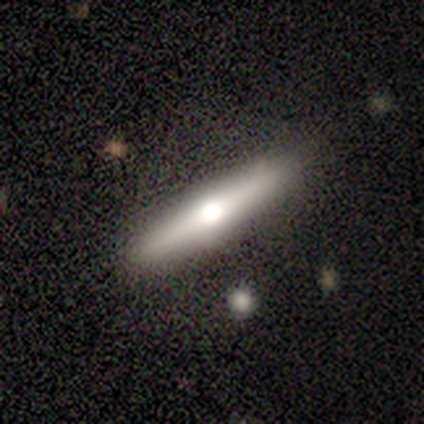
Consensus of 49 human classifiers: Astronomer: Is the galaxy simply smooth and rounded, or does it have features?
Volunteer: featured or disk — 59% (runner-up: smooth, 39%).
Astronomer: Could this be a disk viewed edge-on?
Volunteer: yes — 93%.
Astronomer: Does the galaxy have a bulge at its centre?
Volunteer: rounded — 93%.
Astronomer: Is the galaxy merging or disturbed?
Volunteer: none — 83%.